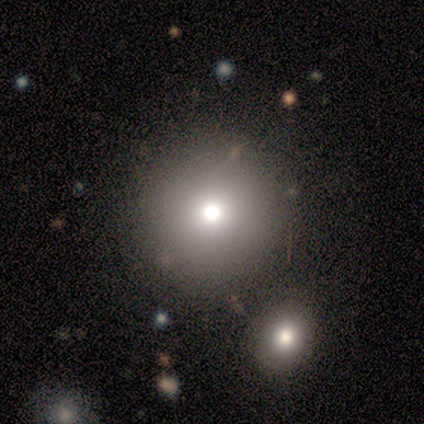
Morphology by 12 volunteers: Smooth or featured? smooth (67%)
How rounded? round (100%)
Merging? none (78%)